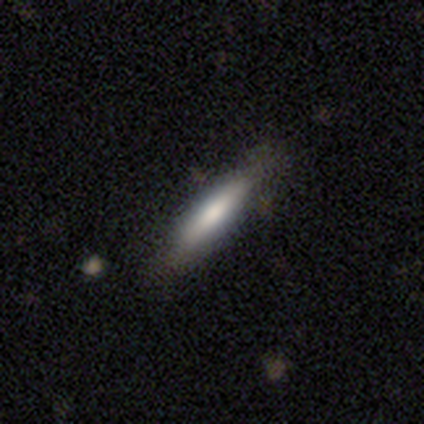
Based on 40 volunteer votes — smooth-or-featured: smooth: 62% | featured or disk: 35% | star or artifact: 2%
  how-rounded: cigar-shaped: 84% | in between: 16% | round: 0%
  merging: none: 64% | minor disturbance: 5% | major disturbance: 3% | merger: 0%